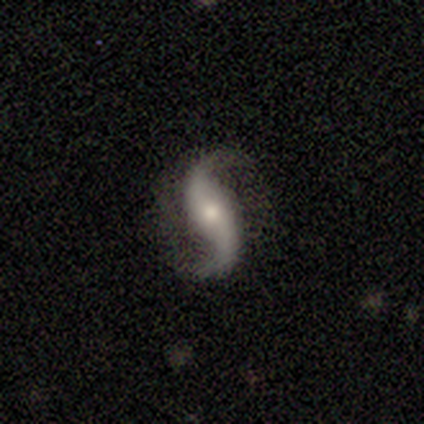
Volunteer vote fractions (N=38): Smooth or featured? 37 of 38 (97%) said featured or disk. Edge-on disk? 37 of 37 (100%) said no. Bar? 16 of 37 (43%) said no. Spiral arms? 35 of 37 (95%) said yes. Spiral winding? 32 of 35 (91%) said loose. Spiral arm count? 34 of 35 (97%) said 2. Bulge size? 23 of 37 (62%) said moderate. Merging? 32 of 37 (86%) said none.